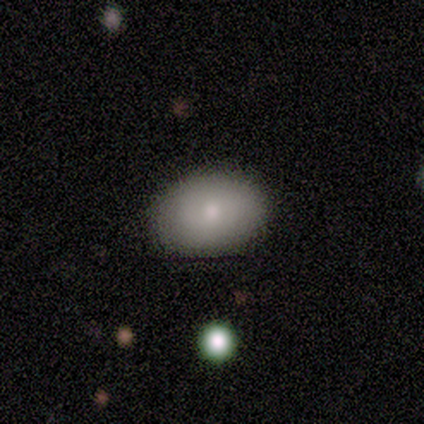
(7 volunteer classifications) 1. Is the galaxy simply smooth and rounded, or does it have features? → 86% smooth, 14% featured or disk, 0% star or artifact.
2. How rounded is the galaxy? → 50% round (tied), 50% in between (tied), 0% cigar-shaped.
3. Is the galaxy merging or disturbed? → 100% none, 0% minor disturbance, 0% major disturbance, 0% merger.